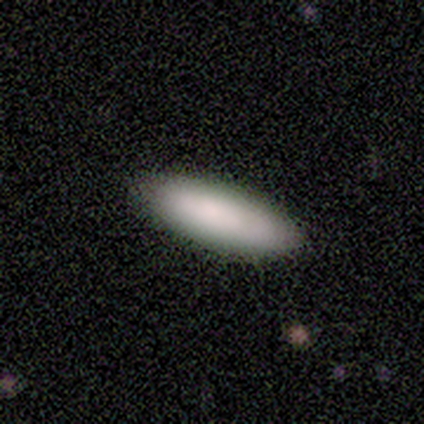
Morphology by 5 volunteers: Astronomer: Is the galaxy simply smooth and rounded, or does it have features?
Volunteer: smooth — 80%.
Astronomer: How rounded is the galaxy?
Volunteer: in between — 75%.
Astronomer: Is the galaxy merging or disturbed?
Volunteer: none — 100%.